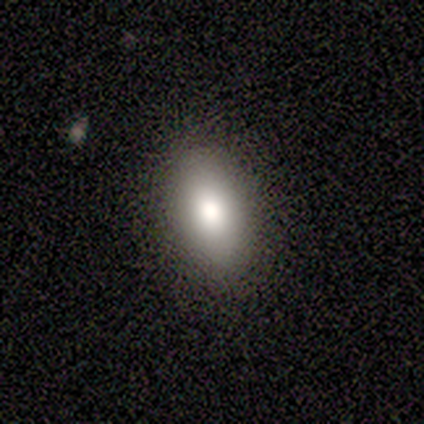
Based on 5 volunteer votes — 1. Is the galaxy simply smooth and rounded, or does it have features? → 100% smooth, 0% featured or disk, 0% star or artifact.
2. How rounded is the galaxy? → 100% in between, 0% round, 0% cigar-shaped.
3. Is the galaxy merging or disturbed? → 80% none, 20% minor disturbance, 0% major disturbance, 0% merger.